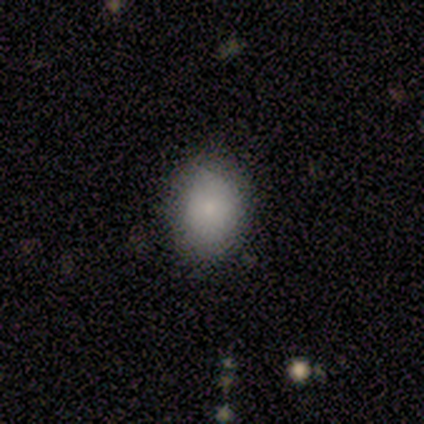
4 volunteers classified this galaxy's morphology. type=smooth (75%); roundness=in between (100%); merging=none (100%).